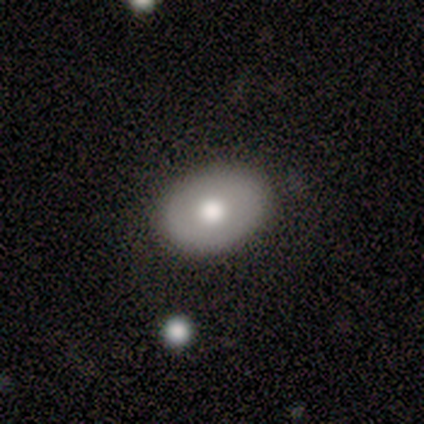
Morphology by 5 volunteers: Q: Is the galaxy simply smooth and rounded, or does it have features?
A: smooth — 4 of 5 (80%).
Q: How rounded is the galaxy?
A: round — 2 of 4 (50%, tied with in between).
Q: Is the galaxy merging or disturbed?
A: none — 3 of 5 (60%).